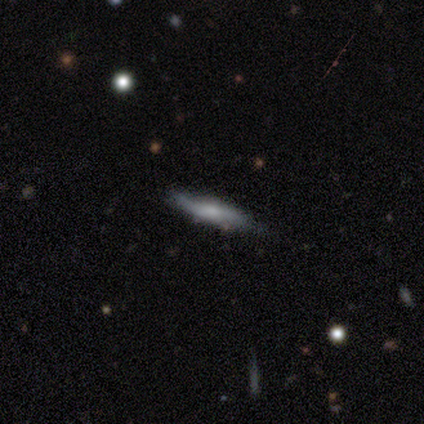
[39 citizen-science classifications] Q: Smooth or featured?
A: smooth (51%); runner-up: featured or disk (44%)
Q: How rounded?
A: cigar-shaped (80%); runner-up: in between (20%)
Q: Merging?
A: none (81%); runner-up: major disturbance (11%)